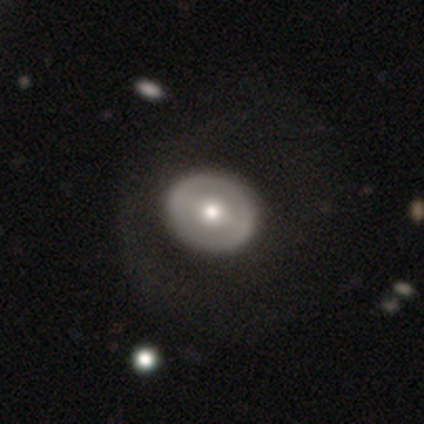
A featured or disk galaxy (63%) with a strong bar (50%), no spiral arms (75%) and a moderate central bulge (79%).

Vote fractions:
- Smooth or featured? featured or disk: 63% / smooth: 34% / star or artifact: 3%
- Edge-on disk? no: 100% / yes: 0%
- Bar? strong: 50% / no: 29% / weak: 21%
- Spiral arms? no: 75% / yes: 25%
- Bulge size? moderate: 79% / large: 8% / small: 8% / dominant: 4% / none: 0%
- Merging? none: 57% / major disturbance: 14% / minor disturbance: 3% / merger: 3%